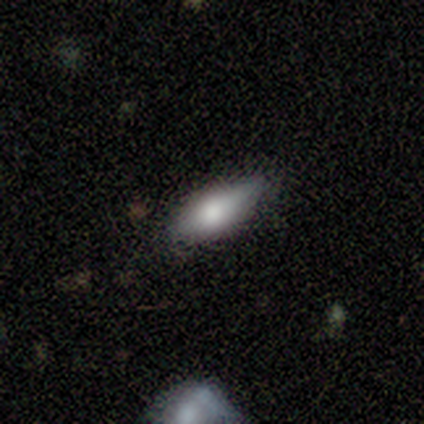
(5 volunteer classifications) Smooth or featured? featured or disk (60%)
Edge-on disk? yes (100%)
Edge-on bulge? rounded (100%)
Merging? none (50%, tied with minor disturbance)